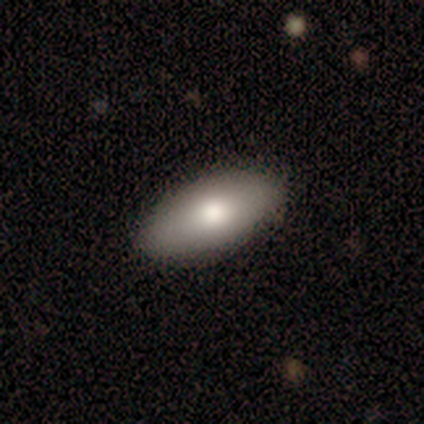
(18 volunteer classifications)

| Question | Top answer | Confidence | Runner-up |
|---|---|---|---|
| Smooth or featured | smooth | 72% | featured or disk (28%) |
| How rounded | in between | 100% | — |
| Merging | none | 94% | minor disturbance (6%) |